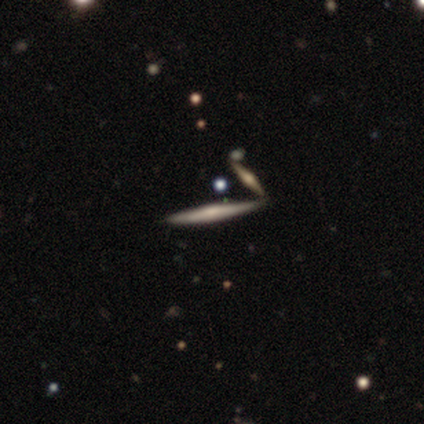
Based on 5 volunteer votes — This is likely a featured or disk galaxy (60%). It is likely viewed edge-on (67%). Edge-on bulge: clearly boxy (100%). Merging: likely none (67%).